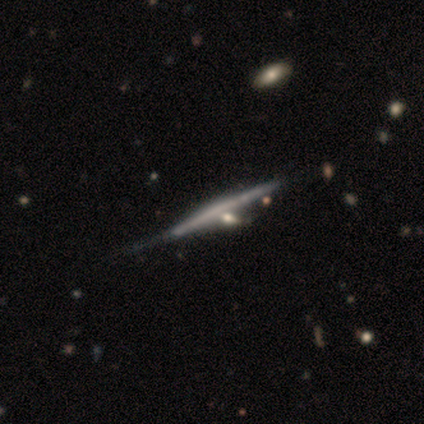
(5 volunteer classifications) Smooth or featured? featured or disk (80%)
Edge-on disk? yes (100%)
Edge-on bulge? rounded (75%)
Merging? minor disturbance (60%)